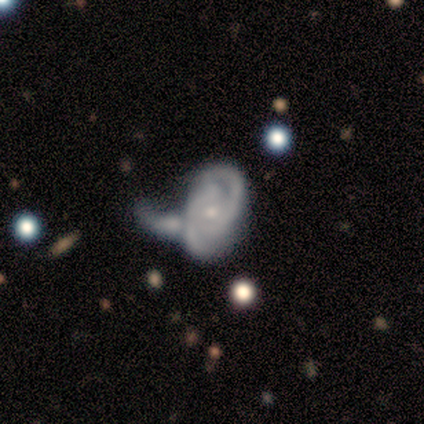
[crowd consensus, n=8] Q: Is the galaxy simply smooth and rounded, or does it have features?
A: featured or disk — 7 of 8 (88%).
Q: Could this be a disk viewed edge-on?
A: no — 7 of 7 (100%).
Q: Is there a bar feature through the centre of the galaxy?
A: no — 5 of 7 (71%).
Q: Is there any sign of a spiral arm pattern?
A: yes — 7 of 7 (100%).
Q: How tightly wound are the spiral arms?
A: tight — 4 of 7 (57%).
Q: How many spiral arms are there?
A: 2 — 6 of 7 (86%).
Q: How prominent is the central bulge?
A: small — 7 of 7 (100%).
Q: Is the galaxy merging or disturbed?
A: major disturbance — 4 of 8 (50%).